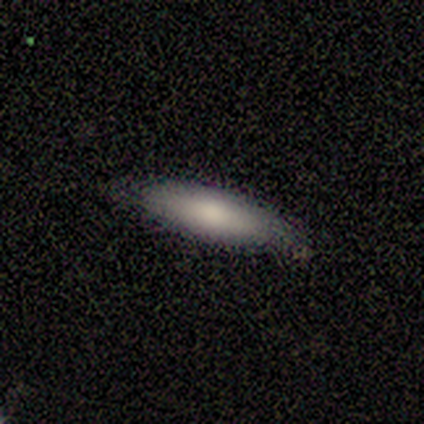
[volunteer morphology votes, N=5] smooth_or_featured: smooth (p=1.00)
how_rounded: cigar-shaped (p=0.80) [alt: in between p=0.20]
merging: none (p=1.00)